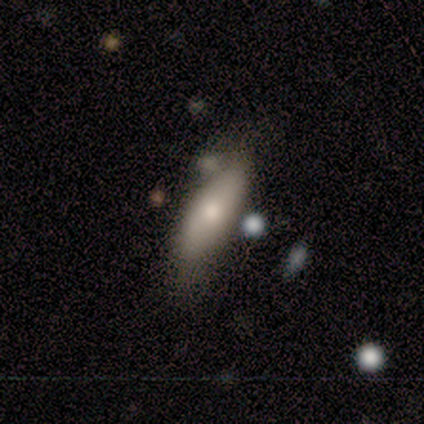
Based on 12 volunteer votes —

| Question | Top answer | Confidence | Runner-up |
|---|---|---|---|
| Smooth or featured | smooth | 83% | featured or disk (17%) |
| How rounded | in between | 60% | cigar-shaped (40%) |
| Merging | none | 75% | minor disturbance (17%) |